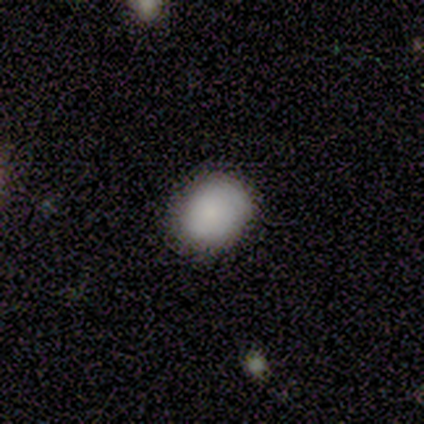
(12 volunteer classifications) smooth 92%, featured or disk 8%, star or artifact 0%. Down the decision tree: how rounded — round (55%); merging — none (67%).